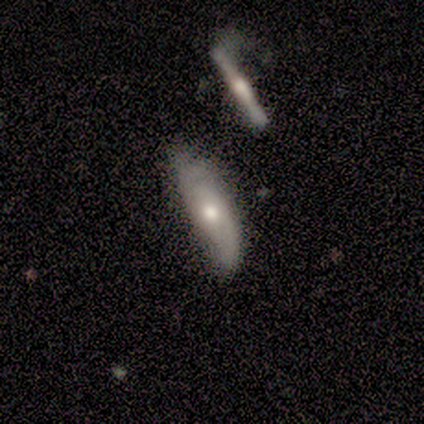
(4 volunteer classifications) Morphology: type=smooth (50%, tied with featured or disk); roundness=in between (50%, tied with cigar-shaped); merging=none (75%).